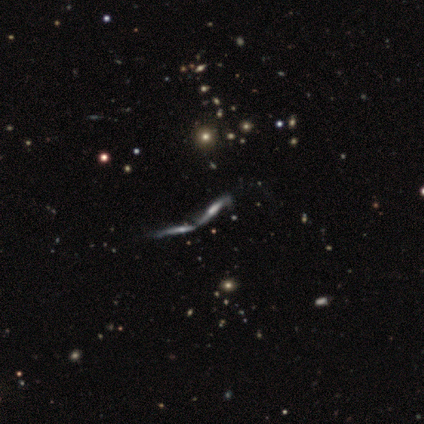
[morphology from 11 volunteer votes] Smooth or featured? 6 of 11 (55%) said featured or disk. Edge-on disk? 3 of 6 (50%, tied with no) said yes. Edge-on bulge? 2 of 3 (67%) said rounded. Merging? 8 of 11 (73%) said merger.